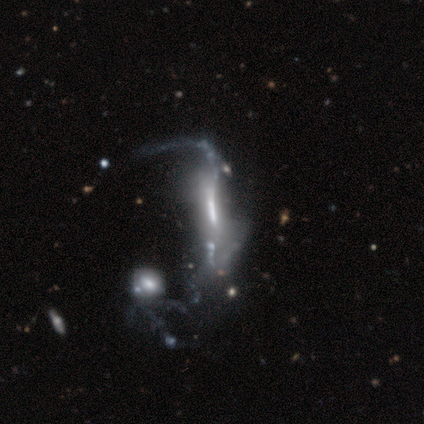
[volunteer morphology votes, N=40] A featured or disk galaxy (78%) with a strong bar (55%), 2 (45%) loose (91%) spiral arms (50%, tied with no) and a moderate central bulge (36%, tied with none).

Vote fractions:
- Smooth or featured? featured or disk: 78% / smooth: 12% / star or artifact: 10%
- Edge-on disk? no: 71% / yes: 29%
- Bar? strong: 55% / no: 27% / weak: 18%
- Spiral arms? yes: 50% (tied) / no: 50% (tied)
- Spiral winding? loose: 91% / tight: 9% / medium: 0%
- Spiral arm count? 2: 45% / can't tell: 36% / 1: 18% / 3: 0% / 4: 0% / more than 4: 0%
- Bulge size? moderate: 36% (tied) / none: 36% (tied) / small: 14% / large: 9% / dominant: 5%
- Merging? major disturbance: 33% / merger: 25% / none: 3% / minor disturbance: 3%